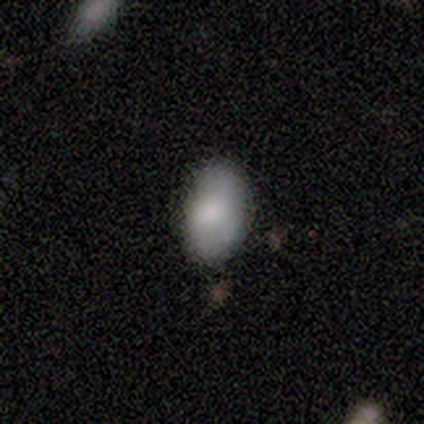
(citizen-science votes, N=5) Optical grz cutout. It shows a smooth galaxy with no disk features (100%) that is in between round and cigar-shaped (100%). Merging: none (80%).